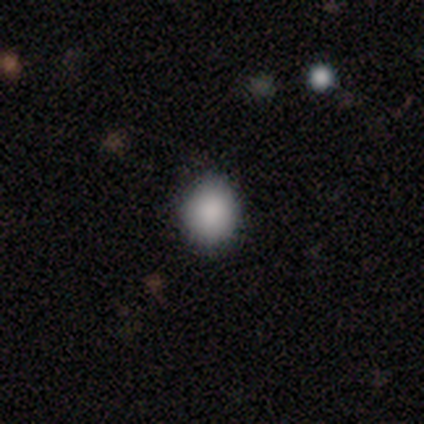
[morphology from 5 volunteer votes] smooth-or-featured: smooth: 100% | featured or disk: 0% | star or artifact: 0%
  how-rounded: in between: 60% | round: 40% | cigar-shaped: 0%
  merging: none: 80% | minor disturbance: 20% | major disturbance: 0% | merger: 0%